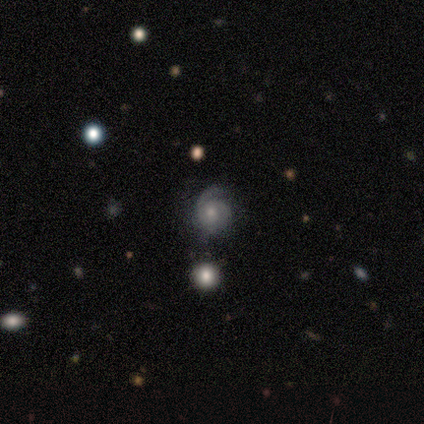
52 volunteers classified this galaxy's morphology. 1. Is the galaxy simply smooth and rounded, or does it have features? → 85% featured or disk, 13% smooth, 2% star or artifact.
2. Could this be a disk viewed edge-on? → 98% no, 2% yes.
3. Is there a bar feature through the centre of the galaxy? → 84% no, 16% weak, 0% strong.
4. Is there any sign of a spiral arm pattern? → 100% yes, 0% no.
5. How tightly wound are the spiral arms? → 63% tight, 33% medium, 5% loose.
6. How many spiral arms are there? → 44% 2, 30% can't tell, 14% 1, 9% 3, 2% 4, 0% more than 4.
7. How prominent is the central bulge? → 51% moderate, 47% small, 2% none, 0% dominant, 0% large.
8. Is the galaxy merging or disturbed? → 61% none, 29% minor disturbance, 8% major disturbance, 2% merger.